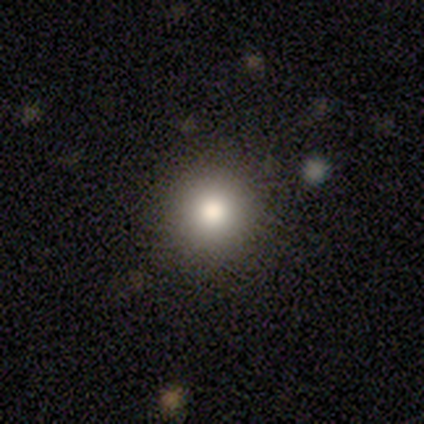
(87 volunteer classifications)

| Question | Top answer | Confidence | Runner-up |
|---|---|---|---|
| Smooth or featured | smooth | 72% | star or artifact (22%) |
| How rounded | round | 94% | in between (6%) |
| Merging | none | 91% | major disturbance (4%) |